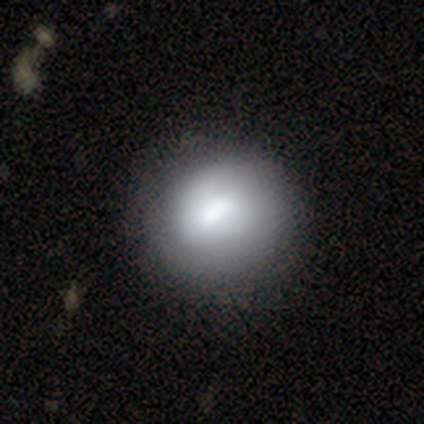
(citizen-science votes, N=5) Smooth or featured? 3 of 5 (60%) said smooth. How rounded? 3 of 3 (100%) said round. Merging? 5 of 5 (100%) said none.